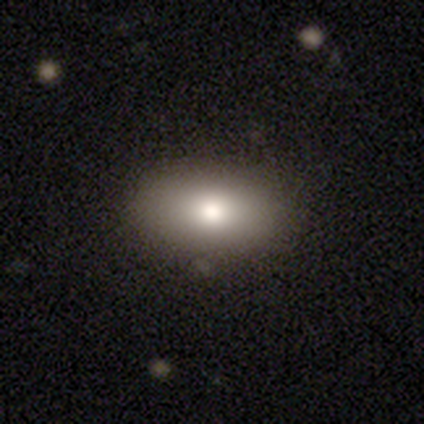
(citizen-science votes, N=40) smooth 80%, featured or disk 12%, star or artifact 8%. Down the decision tree: how rounded — in between (91%); merging — none (97%).